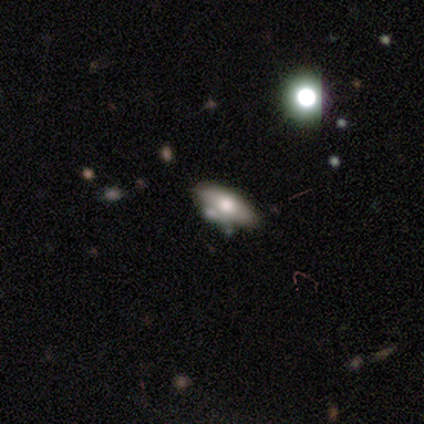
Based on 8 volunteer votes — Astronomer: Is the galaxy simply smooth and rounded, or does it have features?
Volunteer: smooth — 62%.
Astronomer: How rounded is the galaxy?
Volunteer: in between — 100%.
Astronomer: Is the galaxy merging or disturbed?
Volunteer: none — 71%.